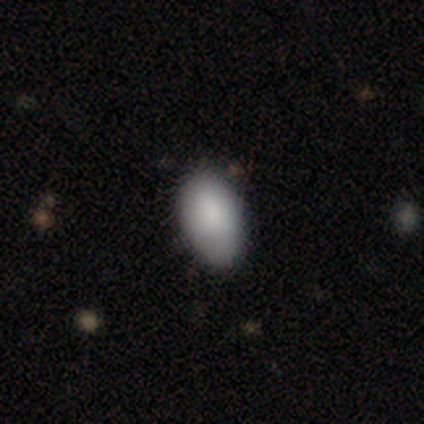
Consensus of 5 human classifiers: This is likely a smooth galaxy (60%). How rounded: clearly in between (100%). Merging: clearly none (100%).